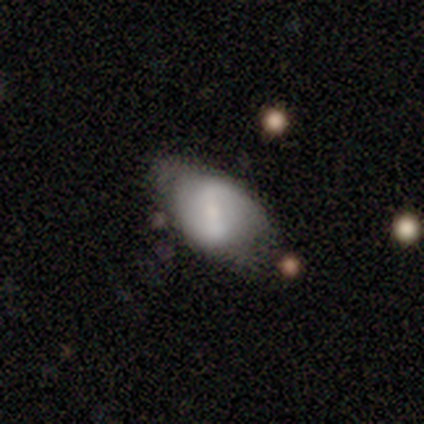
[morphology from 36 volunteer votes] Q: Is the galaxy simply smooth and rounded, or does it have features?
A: featured or disk — 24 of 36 (67%).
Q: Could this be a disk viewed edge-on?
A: no — 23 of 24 (96%).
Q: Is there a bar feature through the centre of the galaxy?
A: weak — 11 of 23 (48%).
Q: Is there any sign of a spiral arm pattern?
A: yes — 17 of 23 (74%).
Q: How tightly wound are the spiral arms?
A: loose — 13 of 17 (76%).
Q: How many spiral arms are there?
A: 2 — 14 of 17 (82%).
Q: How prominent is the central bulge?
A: small — 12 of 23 (52%).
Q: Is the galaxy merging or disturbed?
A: none — 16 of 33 (48%).